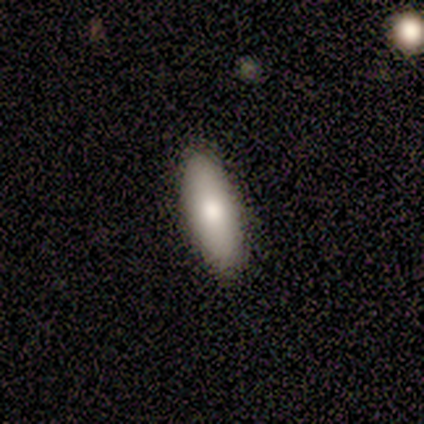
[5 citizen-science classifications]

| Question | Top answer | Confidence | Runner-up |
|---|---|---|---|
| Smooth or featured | smooth | 80% | featured or disk (20%) |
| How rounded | cigar-shaped | 75% | in between (25%) |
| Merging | none | 100% | — |